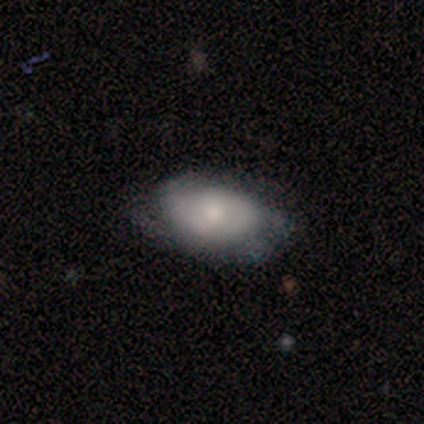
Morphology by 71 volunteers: Smooth or featured: featured or disk — 59% (smooth — 32%)
Edge-on disk: no — 93% (yes — 7%)
Bar: no — 85% (weak — 15%)
Spiral arms: yes — 74% (no — 26%)
Spiral winding: tight — 62% (medium — 28%)
Spiral arm count: 2 — 45% (can't tell — 38%)
Bulge size: moderate — 62% (small — 23%)
Merging: none — 46% (minor disturbance — 43%)